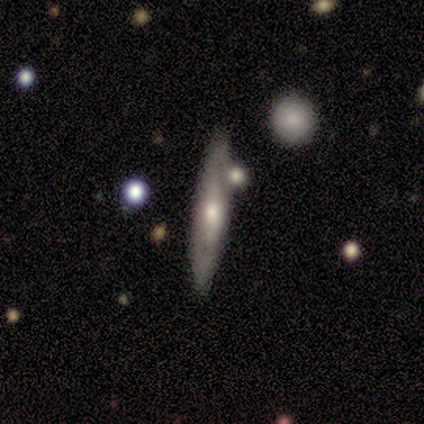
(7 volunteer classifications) Smooth or featured? 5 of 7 (71%) said featured or disk. Edge-on disk? 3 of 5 (60%) said no. Bar? 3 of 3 (100%) said weak. Spiral arms? 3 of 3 (100%) said no. Bulge size? 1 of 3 (33%, tied with moderate and small) said large. Merging? 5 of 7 (71%) said none.